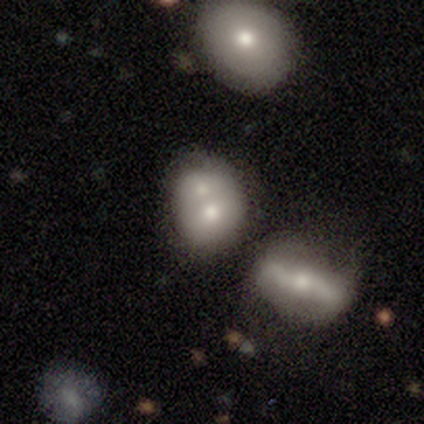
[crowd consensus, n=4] Smooth or featured? 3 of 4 (75%) said smooth. How rounded? 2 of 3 (67%) said round. Merging? 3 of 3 (100%) said merger.